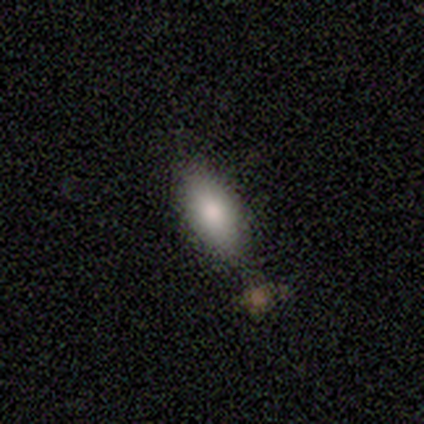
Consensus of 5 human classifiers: Q: Smooth or featured?
A: smooth (80%); runner-up: star or artifact (20%)
Q: How rounded?
A: in between (100%)
Q: Merging?
A: none (50%); tied with: merger (50%)